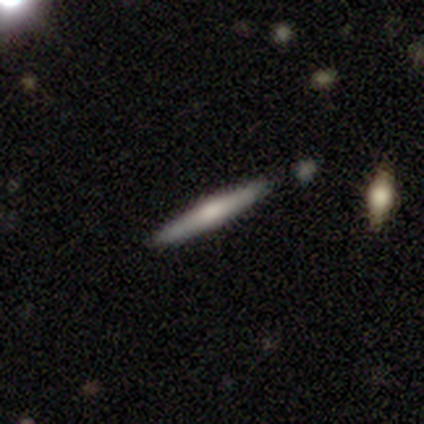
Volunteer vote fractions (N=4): This is likely a featured or disk galaxy (75%). It is clearly viewed edge-on (100%). Edge-on bulge: likely rounded (67%). Merging: clearly none (100%).